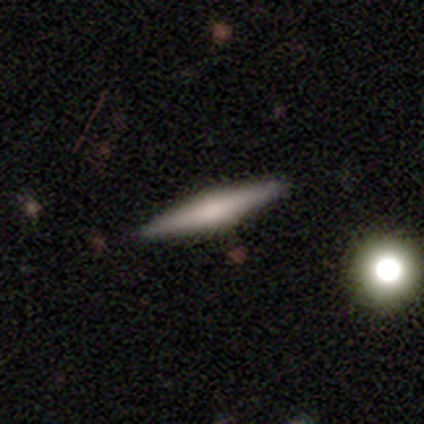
Smooth or featured?
  - featured or disk: 60% *
  - smooth: 40%
  - star or artifact: 0%
Edge-on disk?
  - yes: 100% *
  - no: 0%
Edge-on bulge?
  - boxy: 33% * (tied)
  - none: 33% * (tied)
  - rounded: 33% * (tied)
Merging?
  - none: 100% *
  - minor disturbance: 0%
  - major disturbance: 0%
  - merger: 0%